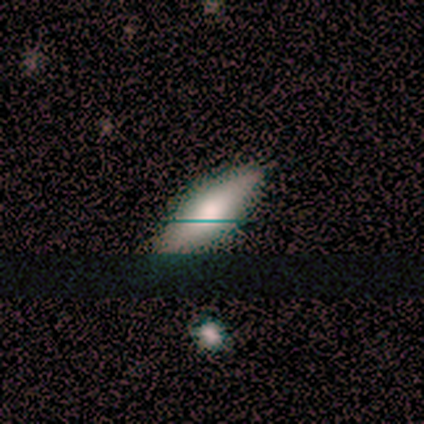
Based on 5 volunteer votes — Overall: smooth (80%). How rounded: in between (75%). Merging: none (75%).